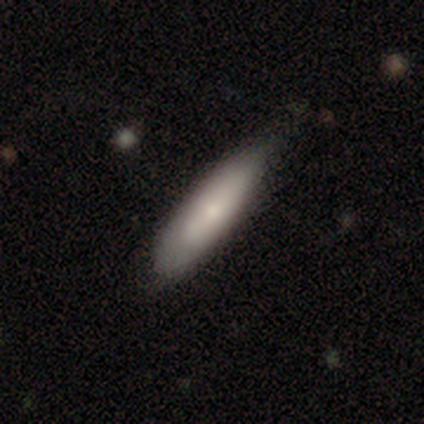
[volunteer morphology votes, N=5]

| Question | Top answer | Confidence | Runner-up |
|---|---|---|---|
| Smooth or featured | smooth | 80% | featured or disk (20%) |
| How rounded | in between | 75% | cigar-shaped (25%) |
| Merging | none | 60% | minor disturbance (40%) |